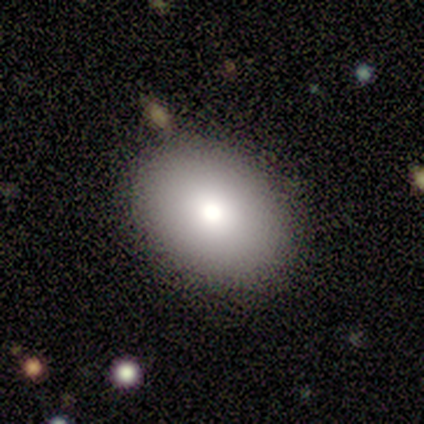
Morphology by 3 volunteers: This is clearly a smooth galaxy (100%). How rounded: clearly in between (100%). Merging: clearly none (100%).